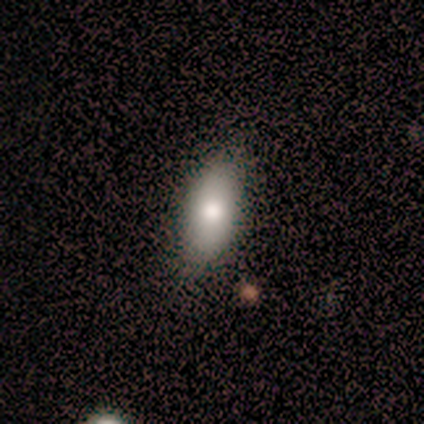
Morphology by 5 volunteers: Overall: smooth (80%). How rounded: in between (100%). Merging: none (75%).